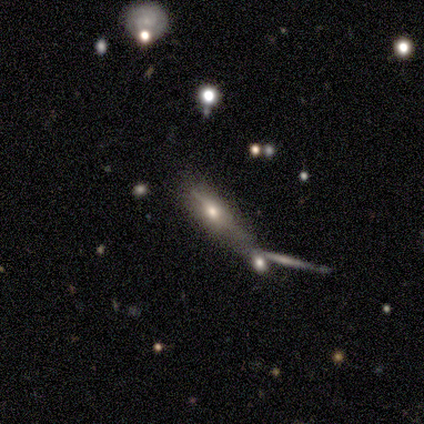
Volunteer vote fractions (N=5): smooth 40% (tied), featured or disk 40% (tied), star or artifact 20%. Down the decision tree: how rounded — round (50%, tied with cigar-shaped); merging — none (50%).